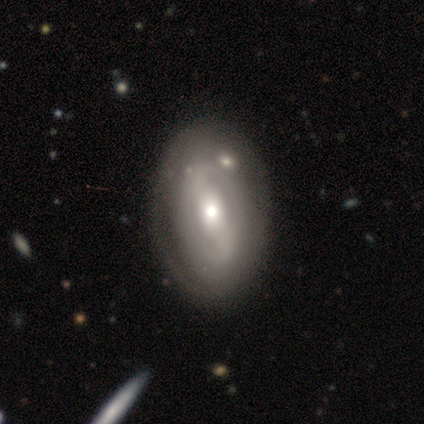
A featured or disk galaxy (80%) with a strong bar (50%, tied with weak), no spiral arms (75%) and a moderate central bulge (50%, tied with small). Merging: none (100%).